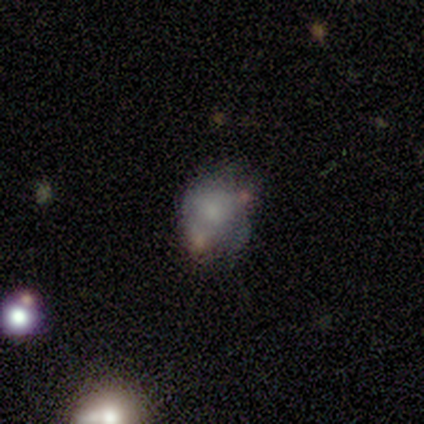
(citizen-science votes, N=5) smooth-or-featured: smooth: 80% | featured or disk: 20% | star or artifact: 0%
  how-rounded: round: 75% | in between: 25% | cigar-shaped: 0%
  merging: none: 80% | minor disturbance: 20% | major disturbance: 0% | merger: 0%